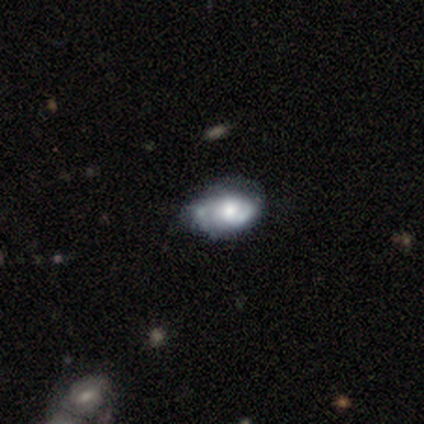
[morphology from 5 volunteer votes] Overall: featured or disk (80%). Edge-on disk: no (100%). Bar: no (75%). Spiral arms: yes (75%). Spiral arm count: can't tell (100%). Spiral winding: tight (67%; loose 33%). Bulge size: moderate (50%; large 25%). Merging: none (60%; minor disturbance 40%).